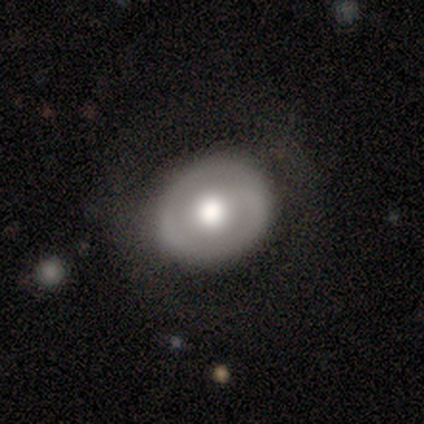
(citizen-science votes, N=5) Smooth or featured?
  - featured or disk: 60% *
  - smooth: 40%
  - star or artifact: 0%
Edge-on disk?
  - no: 100% *
  - yes: 0%
Bar?
  - no: 67% *
  - weak: 33%
  - strong: 0%
Spiral arms?
  - no: 67% *
  - yes: 33%
Bulge size?
  - large: 67% *
  - moderate: 33%
  - dominant: 0%
  - small: 0%
  - none: 0%
Merging?
  - none: 60% *
  - minor disturbance: 20%
  - major disturbance: 20%
  - merger: 0%